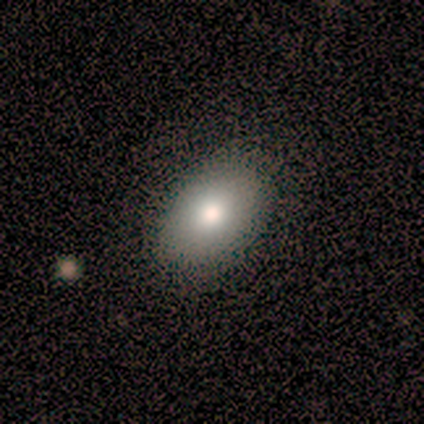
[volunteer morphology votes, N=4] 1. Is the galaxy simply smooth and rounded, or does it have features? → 50% smooth (tied), 50% star or artifact (tied), 0% featured or disk.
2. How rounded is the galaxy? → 100% in between, 0% round, 0% cigar-shaped.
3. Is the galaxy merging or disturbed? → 50% none (tied), 50% minor disturbance (tied), 0% major disturbance, 0% merger.